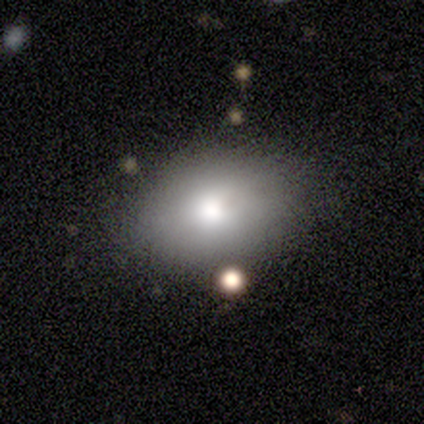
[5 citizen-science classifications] smooth-or-featured: smooth: 80% | featured or disk: 20% | star or artifact: 0%
  how-rounded: in between: 75% | round: 25% | cigar-shaped: 0%
  merging: none: 80% | minor disturbance: 20% | major disturbance: 0% | merger: 0%